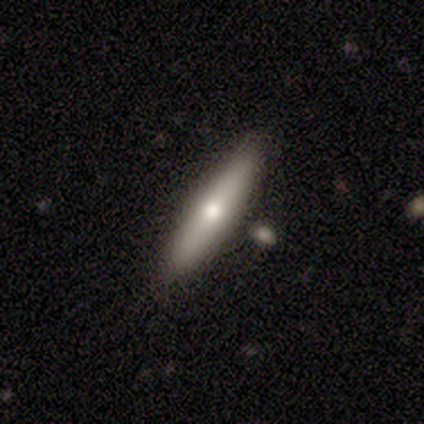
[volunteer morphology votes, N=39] Overall: smooth (64%; featured or disk 26%). How rounded: cigar-shaped (88%). Merging: none (80%).